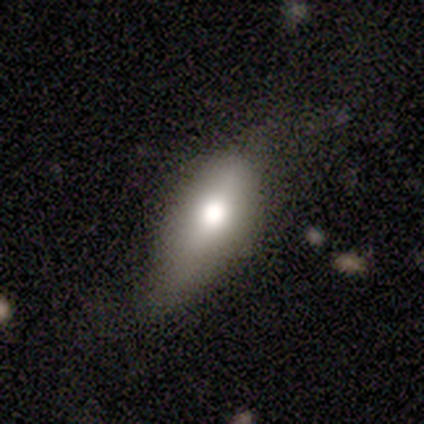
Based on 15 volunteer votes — Smooth or featured: smooth — 73% (featured or disk — 20%)
How rounded: in between — 73% (cigar-shaped — 18%)
Merging: minor disturbance — 50% (none — 43%)